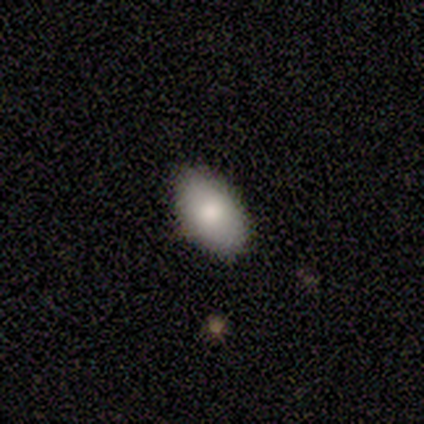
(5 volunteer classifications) Smooth or featured? smooth (100%)
How rounded? in between (100%)
Merging? none (60%)